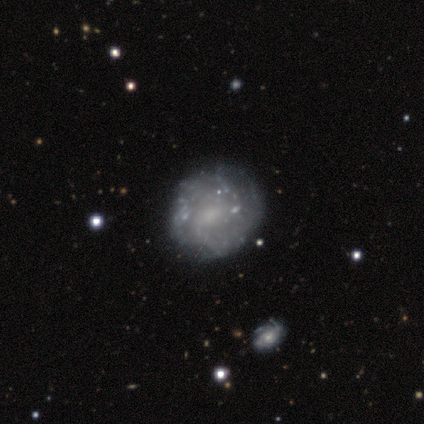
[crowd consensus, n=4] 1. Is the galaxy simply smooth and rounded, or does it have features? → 50% smooth (tied), 50% featured or disk (tied), 0% star or artifact.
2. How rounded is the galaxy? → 100% round, 0% in between, 0% cigar-shaped.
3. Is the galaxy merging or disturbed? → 100% none, 0% minor disturbance, 0% major disturbance, 0% merger.